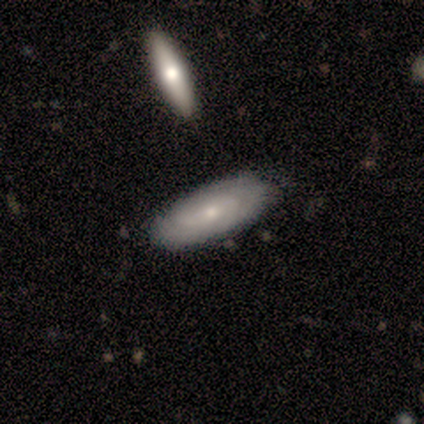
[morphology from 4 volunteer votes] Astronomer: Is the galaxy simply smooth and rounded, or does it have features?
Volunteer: smooth — 50%, tied with featured or disk at 50%.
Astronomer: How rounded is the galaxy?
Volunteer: in between — 100%.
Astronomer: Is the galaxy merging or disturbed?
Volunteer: minor disturbance — 75%.